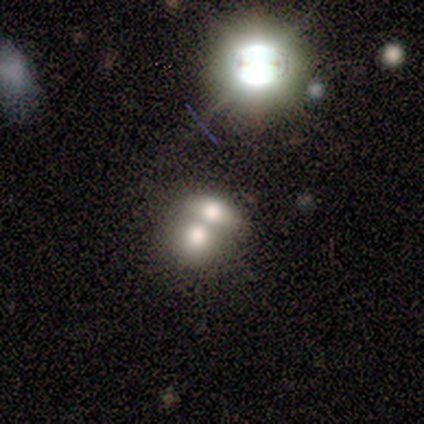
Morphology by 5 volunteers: A smooth galaxy with no disk features (80%) that is round (50%, tied with in between). Merging: merger (60%).